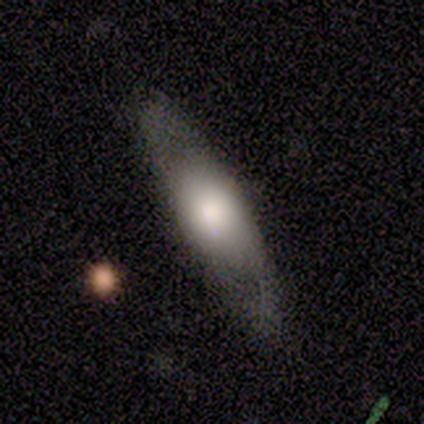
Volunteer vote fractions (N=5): A featured or disk galaxy (60%) with no bar (100%), no spiral arms (67%) and a moderate central bulge (67%). Merging: none (100%).